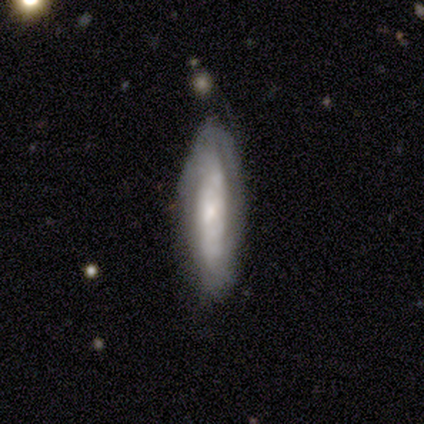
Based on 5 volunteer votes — Overall: featured or disk (80%). Edge-on disk: no (75%). Bar: no (67%; strong 33%). Spiral arms: yes (67%; no 33%). Spiral arm count: can't tell (100%). Spiral winding: tight (100%). Bulge size: large (67%; small 33%). Merging: none (100%).